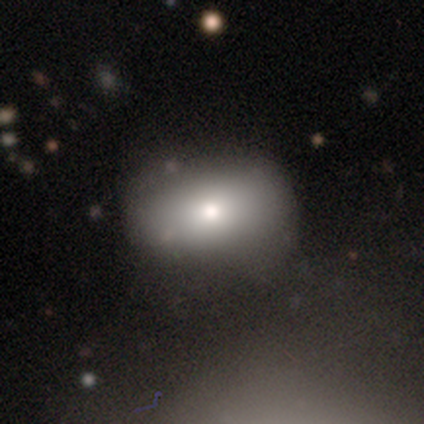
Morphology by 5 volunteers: Smooth or featured? smooth (80%)
How rounded? in between (100%)
Merging? none (100%)